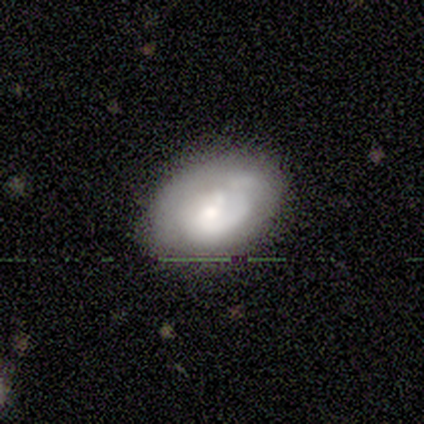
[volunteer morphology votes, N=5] This appears to be a featured or disk galaxy (80%) with no bar (50%), 1 (75%) medium (50%, tied with loose) spiral arms (100%) and a moderate central bulge (50%). Merging: none (60%).